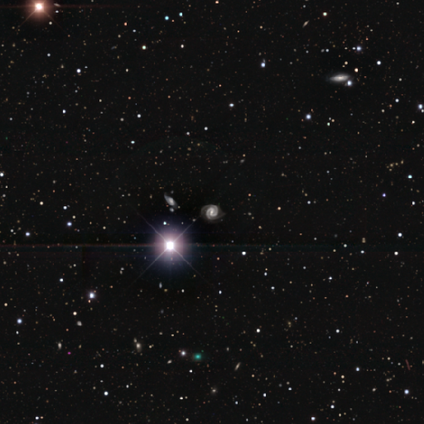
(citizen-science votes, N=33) Morphology: type=featured or disk (58%); edge-on=no (95%); bar=strong (61%); spiral arms=yes (100%); winding=medium (56%); arm count=2 (89%); bulge=moderate (44%); merging=none (76%).